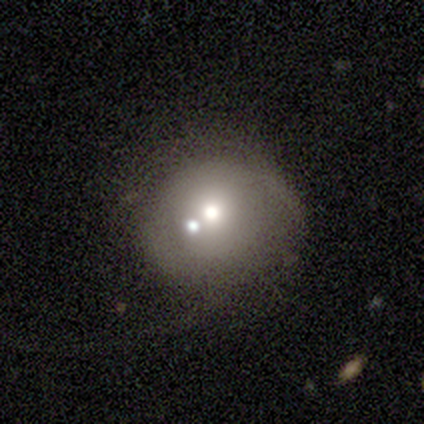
This is possibly a smooth galaxy (49%). How rounded: likely round (79%). Merging: marginally merger (33%).